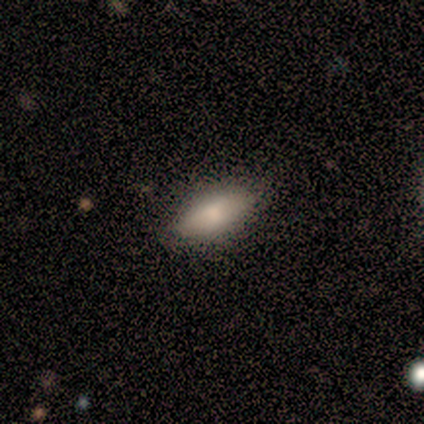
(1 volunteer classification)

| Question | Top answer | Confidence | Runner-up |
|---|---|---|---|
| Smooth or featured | smooth | 100% | — |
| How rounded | in between | 100% | — |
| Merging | none | 100% | — |